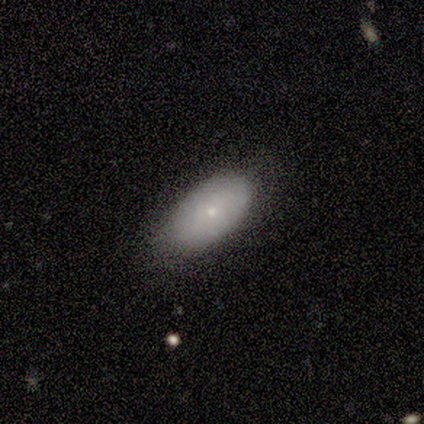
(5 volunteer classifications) smooth-or-featured: smooth: 40% (tied) | featured or disk: 40% (tied) | star or artifact: 20%
  how-rounded: in between: 100% | round: 0% | cigar-shaped: 0%
  merging: none: 50% (tied) | minor disturbance: 50% (tied) | major disturbance: 0% | merger: 0%